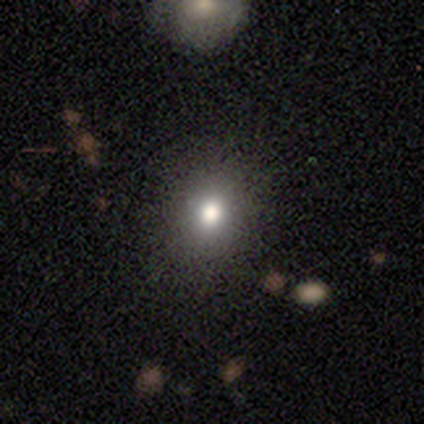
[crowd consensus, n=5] Smooth or featured?
  - smooth: 80% *
  - star or artifact: 20%
  - featured or disk: 0%
How rounded?
  - round: 75% *
  - in between: 25%
  - cigar-shaped: 0%
Merging?
  - none: 75% *
  - minor disturbance: 25%
  - major disturbance: 0%
  - merger: 0%